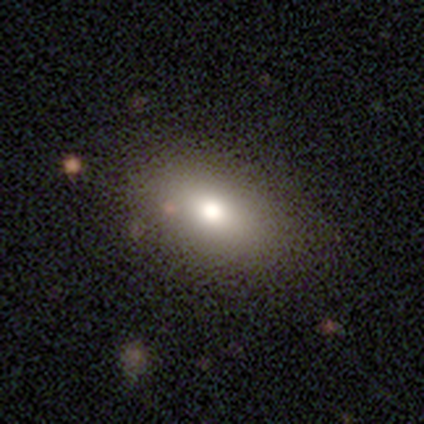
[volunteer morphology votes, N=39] This appears to be a smooth galaxy with no disk features (82%) that is in between round and cigar-shaped (84%). Merging: none (68%).